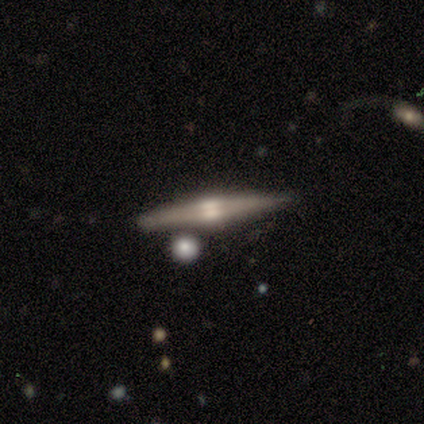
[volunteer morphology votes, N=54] featured or disk 87%, smooth 7%, star or artifact 6%. Down the decision tree: edge-on disk — yes (96%); edge-on bulge — rounded (82%); merging — none (82%).